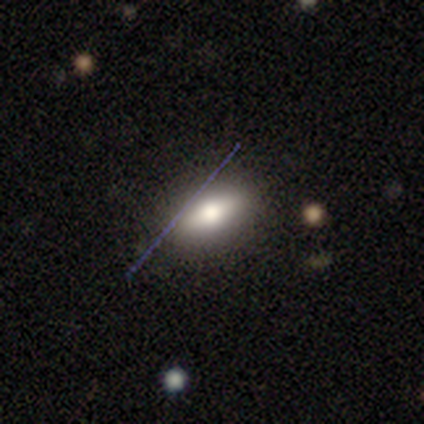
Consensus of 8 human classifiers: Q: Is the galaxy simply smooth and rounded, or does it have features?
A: smooth — 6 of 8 (75%).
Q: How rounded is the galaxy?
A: in between — 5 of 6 (83%).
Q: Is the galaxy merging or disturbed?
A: none — 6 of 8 (75%).